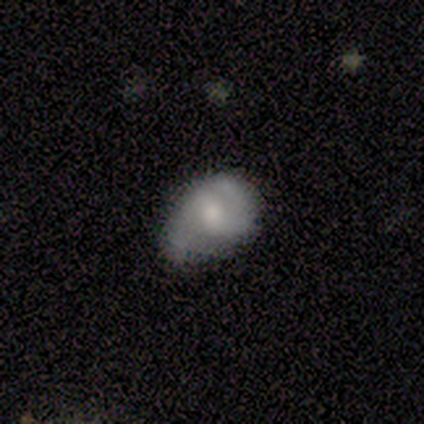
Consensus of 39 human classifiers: Overall: smooth (51%; featured or disk 38%). How rounded: in between (80%). Merging: minor disturbance (49%; none 43%).